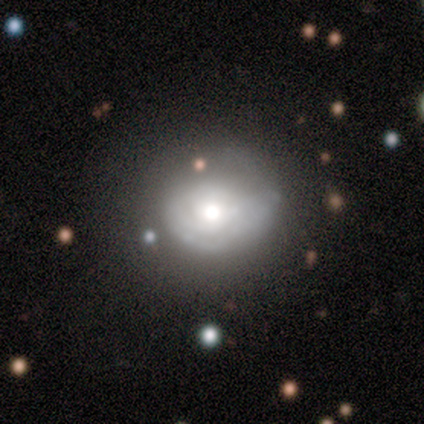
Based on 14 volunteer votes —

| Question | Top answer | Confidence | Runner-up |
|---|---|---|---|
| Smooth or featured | smooth | 57% | featured or disk (36%) |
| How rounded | round | 88% | in between (12%) |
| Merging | none | 38% | minor disturbance (31%) |